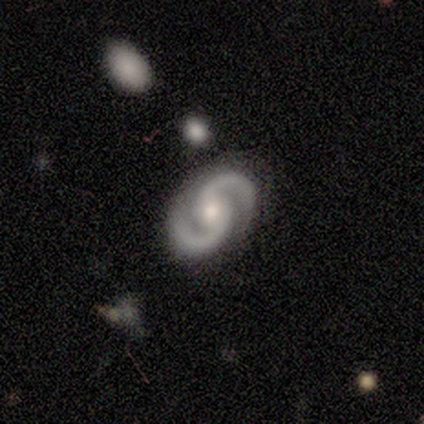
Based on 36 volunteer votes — This appears to be a featured or disk galaxy (97%) with no bar (60%), 2 (100%) medium (60%) spiral arms (100%) and a moderate central bulge (63%). Merging: none (91%).